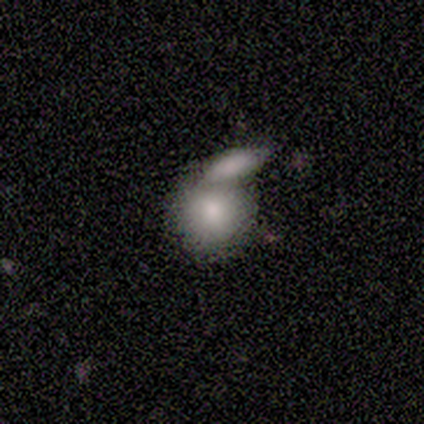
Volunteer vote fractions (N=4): This is clearly a smooth galaxy (100%). How rounded: clearly round (100%). Merging: likely merger (75%).